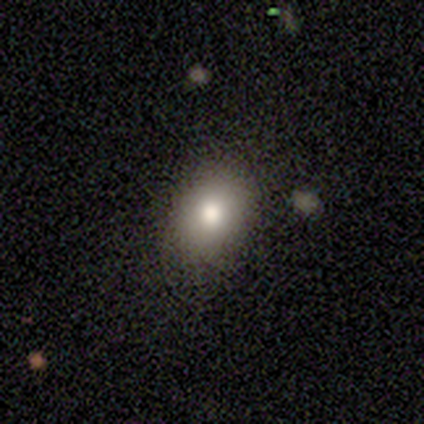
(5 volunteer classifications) A smooth galaxy with no disk features (100%) that is in between round and cigar-shaped (60%). Merging: none (100%).